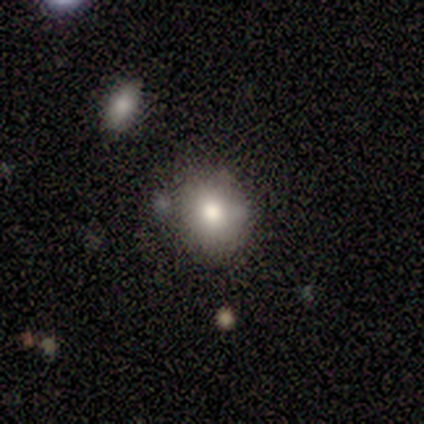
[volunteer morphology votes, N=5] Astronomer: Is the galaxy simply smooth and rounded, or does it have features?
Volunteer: smooth — 80%.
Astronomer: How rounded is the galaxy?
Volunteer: round — 50%, tied with in between at 50%.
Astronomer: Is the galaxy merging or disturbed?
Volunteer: none — 50%, tied with minor disturbance at 50%.